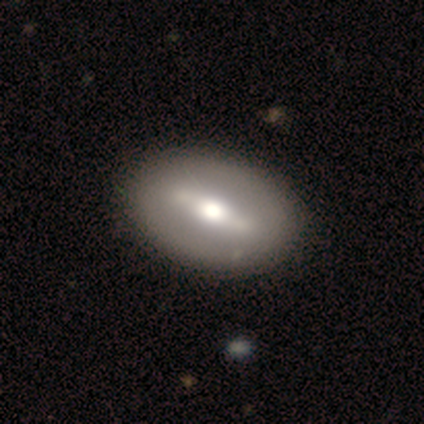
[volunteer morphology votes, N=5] Volunteers were most divided on "bar" (2-way tie): strong: 50%, weak: 50%, no: 0%. More confident: edge-on disk — no (100%); spiral arms — no (100%); smooth or featured — featured or disk (80%); bulge size — large (75%); merging — none (60%).